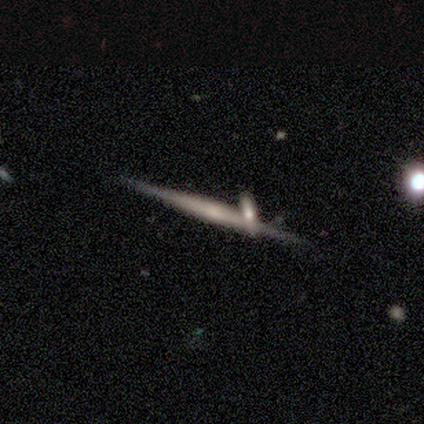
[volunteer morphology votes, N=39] type=featured or disk (77%); edge-on=yes (97%); edge-on bulge=none (55%); merging=none (66%).